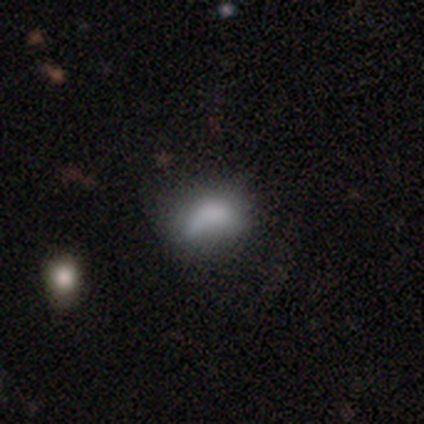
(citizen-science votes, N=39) smooth_or_featured: smooth (p=0.72) [alt: star or artifact p=0.15]
how_rounded: in between (p=0.75) [alt: round p=0.14]
merging: major disturbance (p=0.33) [alt: minor disturbance p=0.30]